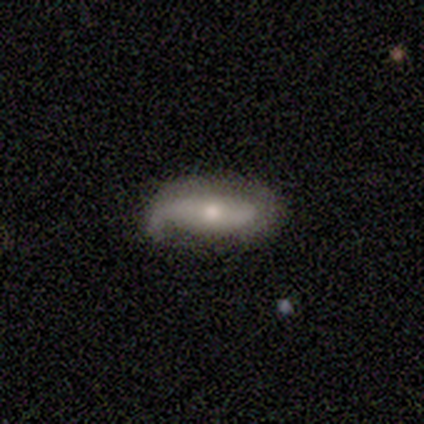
Smooth or featured: featured or disk — 67% (smooth — 33%)
Edge-on disk: no — 100%
Bar: no — 75% (weak — 25%)
Spiral arms: yes — 100%
Spiral winding: loose — 75% (medium — 25%)
Spiral arm count: 2 — 75% (1 — 25%)
Bulge size: small — 75% (moderate — 25%)
Merging: none — 83% (major disturbance — 17%)